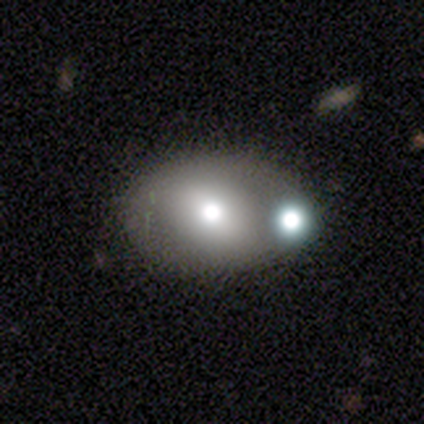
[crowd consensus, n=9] This appears to be a smooth galaxy with no disk features (56%) that is round (60%). Merging: none (67%).